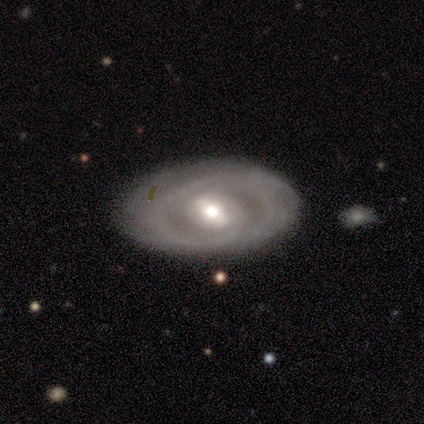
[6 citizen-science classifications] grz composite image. It shows a featured or disk galaxy (100%) with a weak bar (67%), 2 (100%) tight (75%) spiral arms (67%) and a moderate central bulge (67%). Merging: minor disturbance (67%).